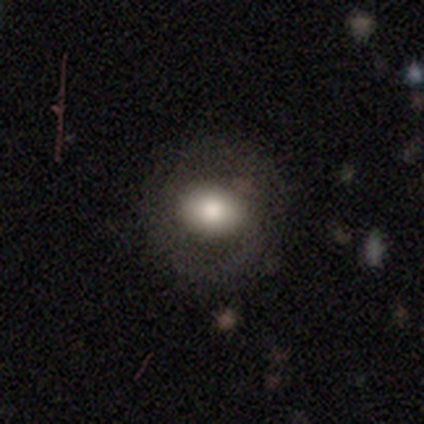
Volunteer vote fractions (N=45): smooth-or-featured: smooth: 80% | featured or disk: 13% | star or artifact: 7%
  how-rounded: round: 64% | in between: 36% | cigar-shaped: 0%
  merging: none: 76% | minor disturbance: 12% | major disturbance: 10% | merger: 2%